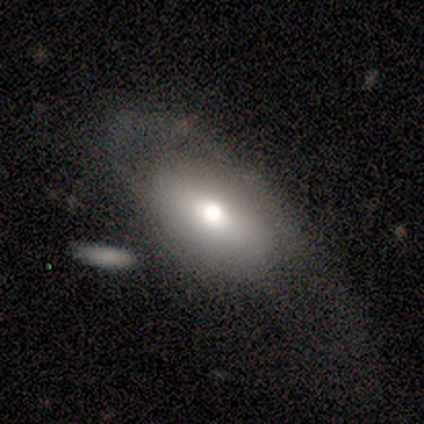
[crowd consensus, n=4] Smooth or featured?
  - smooth: 50% * (tied)
  - featured or disk: 50% * (tied)
  - star or artifact: 0%
How rounded?
  - in between: 100% *
  - round: 0%
  - cigar-shaped: 0%
Merging?
  - none: 100% *
  - minor disturbance: 0%
  - major disturbance: 0%
  - merger: 0%